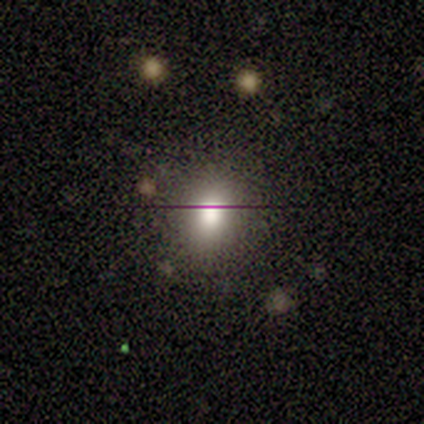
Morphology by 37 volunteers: Smooth or featured?
  - smooth: 49% *
  - star or artifact: 30%
  - featured or disk: 22%
How rounded?
  - round: 83% *
  - in between: 17%
  - cigar-shaped: 0%
Merging?
  - none: 77% *
  - minor disturbance: 12%
  - major disturbance: 8%
  - merger: 4%